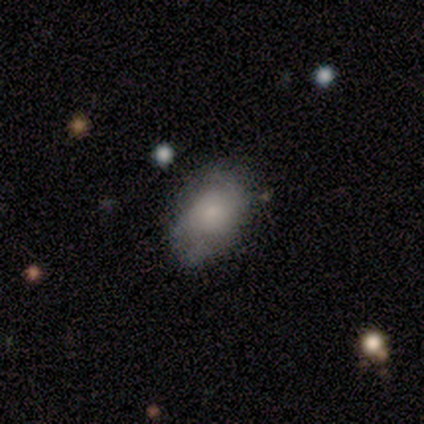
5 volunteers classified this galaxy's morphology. A smooth galaxy with no disk features (60%) that is in between round and cigar-shaped (100%).

Vote fractions:
- Smooth or featured? smooth: 60% / featured or disk: 40% / star or artifact: 0%
- How rounded? in between: 100% / round: 0% / cigar-shaped: 0%
- Merging? minor disturbance: 60% / none: 40% / major disturbance: 0% / merger: 0%